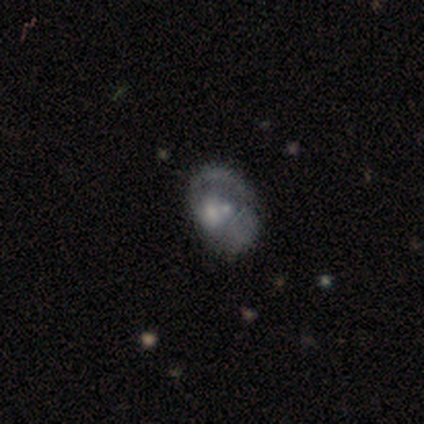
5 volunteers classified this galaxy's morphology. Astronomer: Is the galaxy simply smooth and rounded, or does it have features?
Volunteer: featured or disk — 60% (runner-up: smooth, 40%).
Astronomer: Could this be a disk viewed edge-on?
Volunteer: no — 100%.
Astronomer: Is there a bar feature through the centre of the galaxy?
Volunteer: no — 100%.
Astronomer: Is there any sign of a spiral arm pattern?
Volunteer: yes — 67%.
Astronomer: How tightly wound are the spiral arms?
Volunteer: loose — 100%.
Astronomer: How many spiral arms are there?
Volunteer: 1 — 50%, tied with can't tell at 50%.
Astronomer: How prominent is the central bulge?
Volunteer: moderate — 67%.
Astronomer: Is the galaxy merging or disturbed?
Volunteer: major disturbance — 80%.